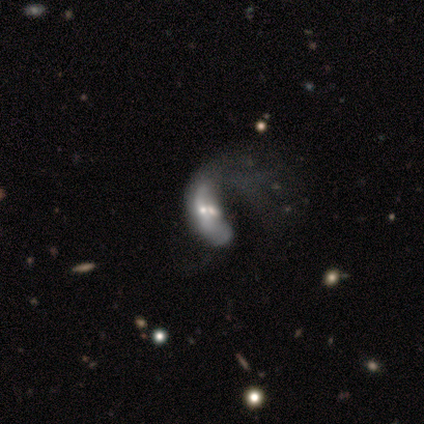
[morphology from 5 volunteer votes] smooth_or_featured: smooth (p=0.60) [alt: featured or disk p=0.20]
how_rounded: cigar-shaped (p=0.67) [alt: in between p=0.33]
merging: merger (p=0.75) [alt: major disturbance p=0.25]